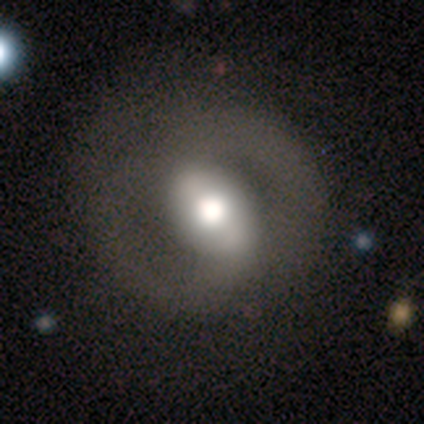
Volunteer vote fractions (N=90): Volunteers were most divided on "bar": weak: 45%, strong: 40%, no: 15%. Remaining: spiral arm count — 2 (98%); edge-on disk — no (96%); spiral arms — yes (84%); merging — none (83%); smooth or featured — featured or disk (78%); spiral winding — medium (50%); bulge size — moderate (48%).